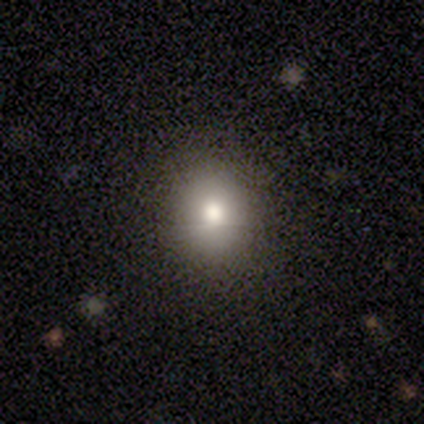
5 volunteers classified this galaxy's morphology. This appears to be a smooth galaxy with no disk features (80%) that is round (75%). Merging: none (100%).